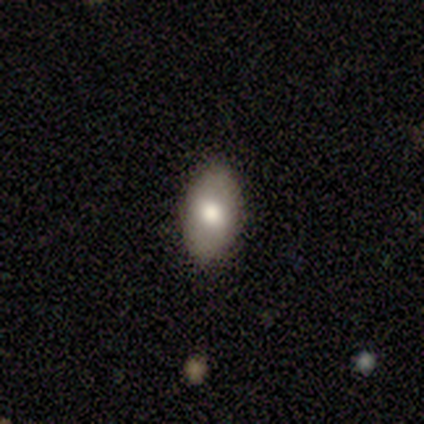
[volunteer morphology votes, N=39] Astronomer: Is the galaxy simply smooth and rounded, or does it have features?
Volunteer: smooth — 69%.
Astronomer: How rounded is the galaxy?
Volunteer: in between — 93%.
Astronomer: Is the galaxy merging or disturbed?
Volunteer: none — 84%.